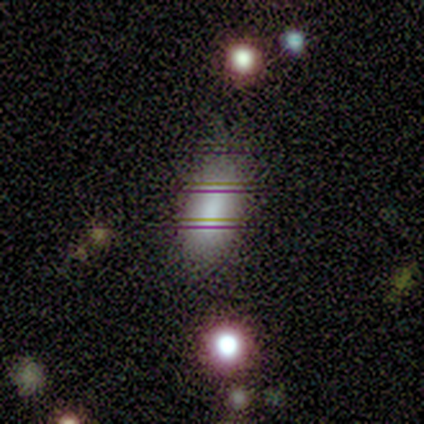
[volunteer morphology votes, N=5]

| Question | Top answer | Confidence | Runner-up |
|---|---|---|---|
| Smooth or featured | smooth | 100% | — |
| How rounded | in between | 100% | — |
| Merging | minor disturbance | 60% | none (40%) |